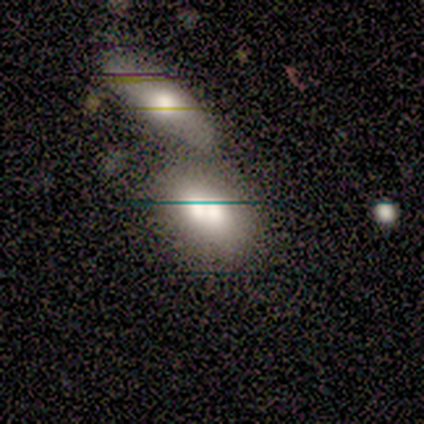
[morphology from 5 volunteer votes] Smooth or featured: smooth — 80% (featured or disk — 20%)
How rounded: in between — 75% (round — 25%)
Merging: none — 60% (merger — 40%)